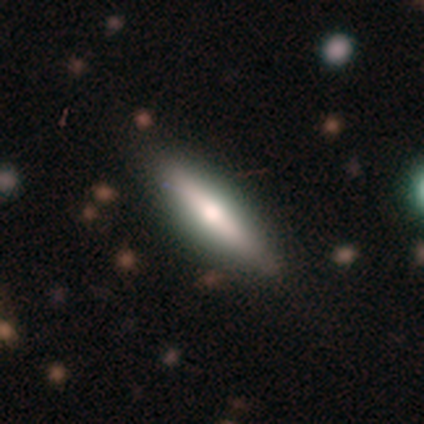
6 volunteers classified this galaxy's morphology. Overall: featured or disk (67%; smooth 33%). Edge-on disk: yes (100%). Edge-on bulge: rounded (75%). Merging: none (83%).